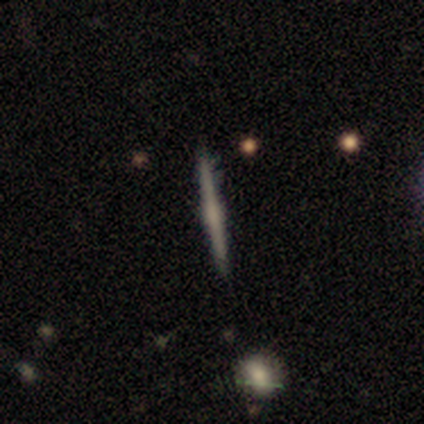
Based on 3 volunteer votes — A smooth galaxy with no disk features (33%, tied with featured or disk and star or artifact) that is cigar-shaped (100%).

Vote fractions:
- Smooth or featured? smooth: 33% (tied) / featured or disk: 33% (tied) / star or artifact: 33% (tied)
- How rounded? cigar-shaped: 100% / round: 0% / in between: 0%
- Merging? none: 50% (tied) / minor disturbance: 50% (tied) / major disturbance: 0% / merger: 0%